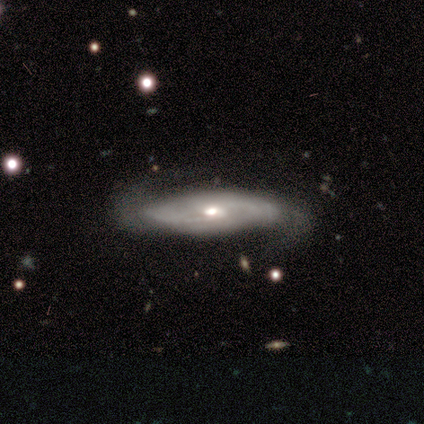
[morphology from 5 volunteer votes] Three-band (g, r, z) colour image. It shows a featured or disk galaxy (60%) with a weak bar (50%, tied with no), more than 4 (50%, tied with can't tell) tight (50%, tied with loose) spiral arms (100%) and a moderate central bulge (50%, tied with small). Merging: none (40%, tied with minor disturbance).